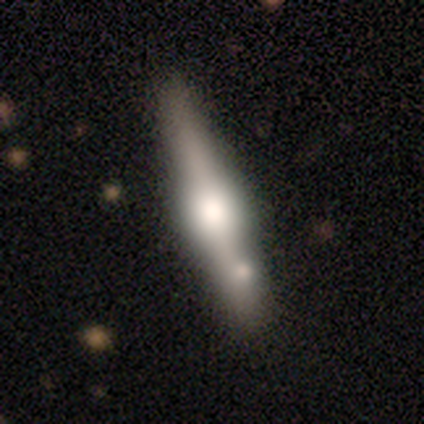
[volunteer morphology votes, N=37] A featured or disk galaxy (73%) viewed edge-on (96%) with a rounded central bulge (92%). Merging: none (58%).